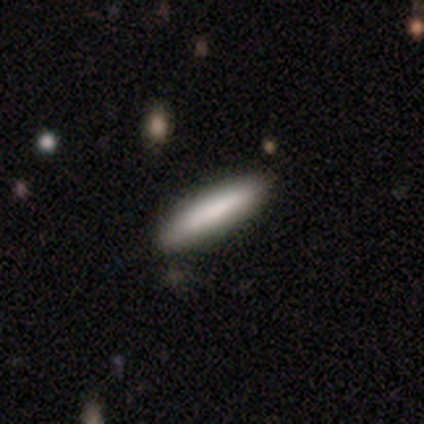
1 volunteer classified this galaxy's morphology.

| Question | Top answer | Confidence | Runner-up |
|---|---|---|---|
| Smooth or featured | smooth | 100% | — |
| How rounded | cigar-shaped | 100% | — |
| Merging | none | 100% | — |